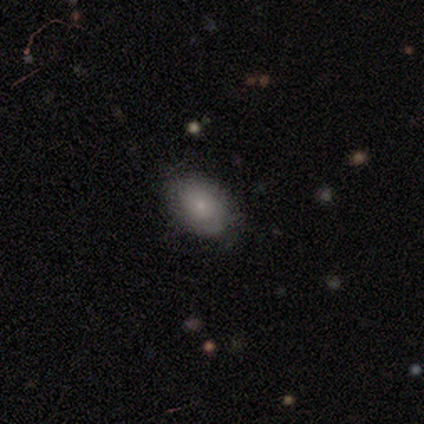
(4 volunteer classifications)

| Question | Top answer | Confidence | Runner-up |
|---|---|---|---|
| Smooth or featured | smooth | 100% | — |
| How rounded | in between | 100% | — |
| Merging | none | 100% | — |